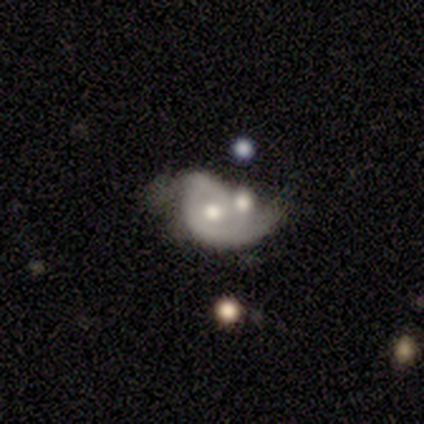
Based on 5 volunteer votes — A featured or disk galaxy (80%) with no bar (75%), 2 (100%) loose (67%) spiral arms (75%) and a moderate central bulge (100%). Merging: merger (60%).